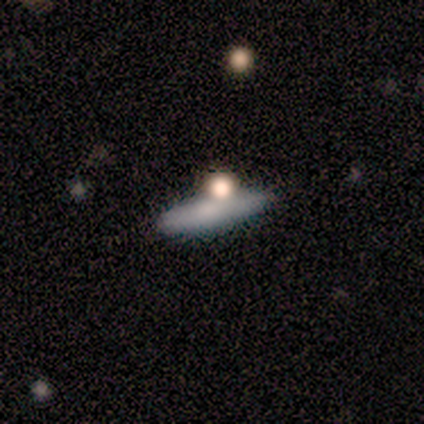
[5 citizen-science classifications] smooth 60%, featured or disk 40%, star or artifact 0%. Down the decision tree: how rounded — cigar-shaped (100%); merging — none (80%).